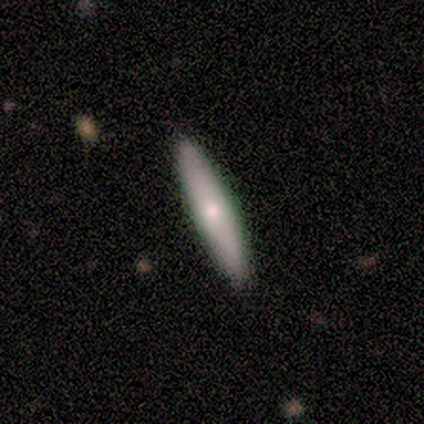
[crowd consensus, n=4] Q: Smooth or featured?
A: smooth (50%); tied with: featured or disk (50%)
Q: How rounded?
A: cigar-shaped (100%)
Q: Merging?
A: none (100%)